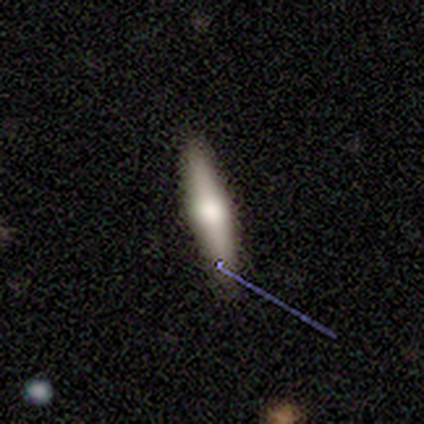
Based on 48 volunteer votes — Smooth or featured?
  - featured or disk: 48% *
  - smooth: 40%
  - star or artifact: 12%
Edge-on disk?
  - yes: 96% *
  - no: 4%
Edge-on bulge?
  - rounded: 91% *
  - boxy: 9%
  - none: 0%
Merging?
  - none: 79% *
  - minor disturbance: 14%
  - major disturbance: 5%
  - merger: 2%